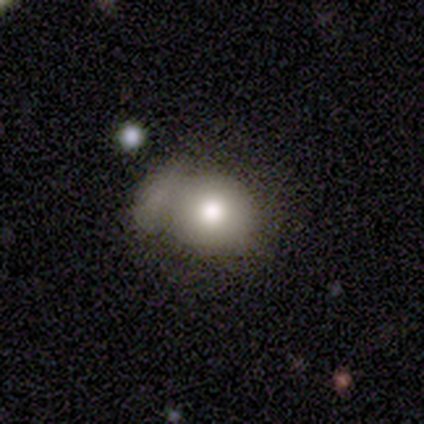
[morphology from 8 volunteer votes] Smooth or featured: smooth — 75% (star or artifact — 25%)
How rounded: round — 100%
Merging: minor disturbance — 50% (major disturbance — 33%)